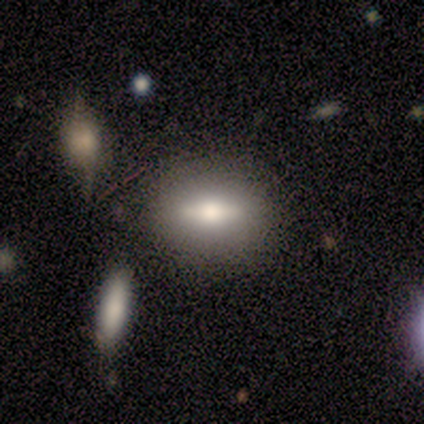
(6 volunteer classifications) smooth 50% (tied), featured or disk 50% (tied), star or artifact 0%. Down the decision tree: how rounded — in between (100%); merging — none (83%).